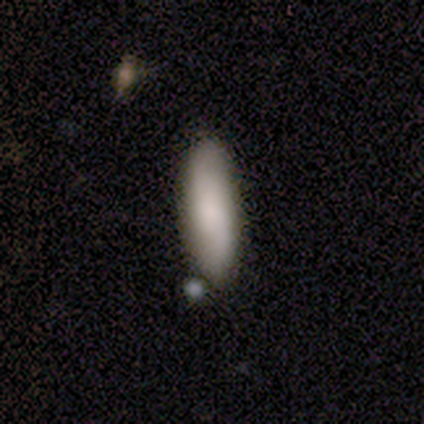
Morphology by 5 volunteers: Smooth or featured? 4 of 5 (80%) said smooth. How rounded? 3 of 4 (75%) said in between. Merging? 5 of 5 (100%) said none.